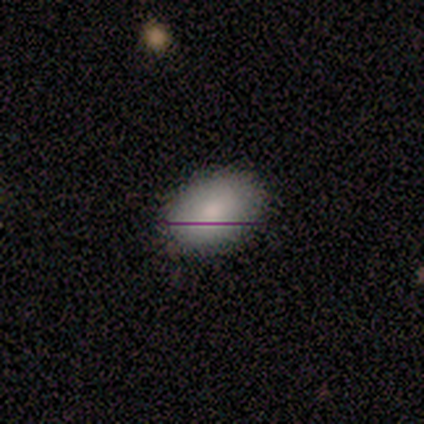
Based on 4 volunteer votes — Morphology: type=smooth (100%); roundness=in between (100%); merging=none (100%).